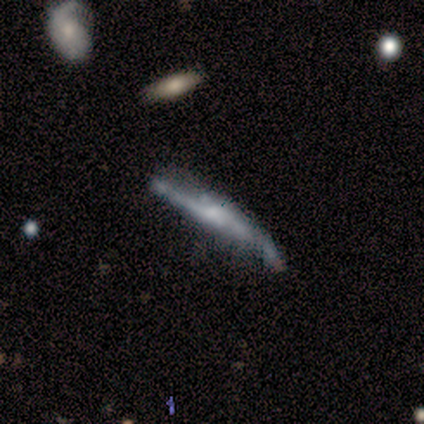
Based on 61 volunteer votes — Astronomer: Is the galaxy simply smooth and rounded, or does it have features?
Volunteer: featured or disk — 79%.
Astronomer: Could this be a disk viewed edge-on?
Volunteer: yes — 69%.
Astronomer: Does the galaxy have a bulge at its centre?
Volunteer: rounded — 64%.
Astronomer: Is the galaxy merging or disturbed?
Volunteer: none — 37% (runner-up: minor disturbance, 32%).